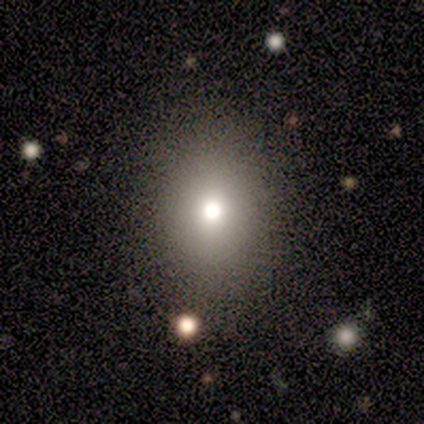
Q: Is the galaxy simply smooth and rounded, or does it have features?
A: smooth — 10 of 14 (71%).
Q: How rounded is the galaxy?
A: in between — 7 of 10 (70%).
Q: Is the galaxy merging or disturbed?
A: none — 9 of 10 (90%).